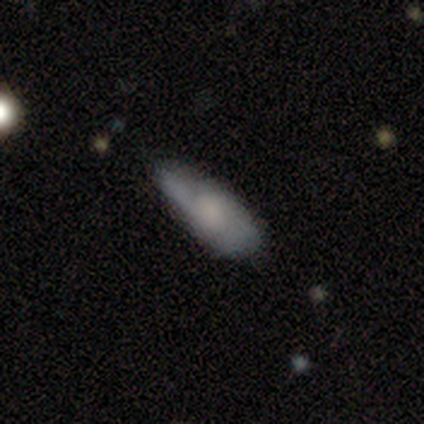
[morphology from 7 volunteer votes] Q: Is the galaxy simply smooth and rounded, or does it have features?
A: smooth — 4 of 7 (57%).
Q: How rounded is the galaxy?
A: in between — 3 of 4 (75%).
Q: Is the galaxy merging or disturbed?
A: none — 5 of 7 (71%).